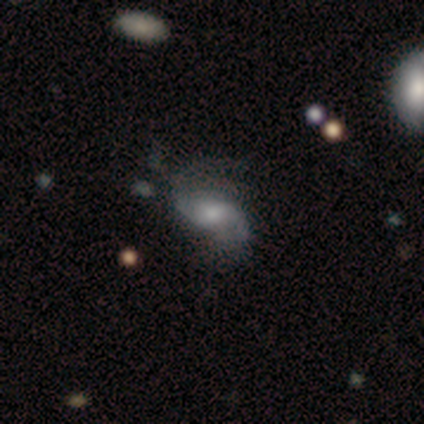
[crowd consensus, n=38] featured or disk 74%, smooth 16%, star or artifact 11%. Down the decision tree: edge-on disk — no (93%); bar — weak (54%); spiral arms — yes (96%); spiral arm count — 2 (80%); spiral winding — loose (64%); bulge size — moderate (38%, tied with small); merging — none (56%).